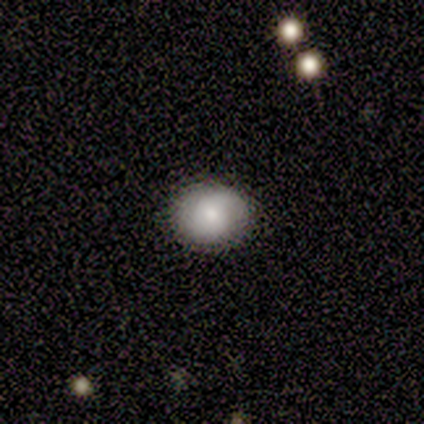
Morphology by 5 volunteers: Smooth or featured? smooth (60%)
How rounded? in between (67%)
Merging? none (80%)